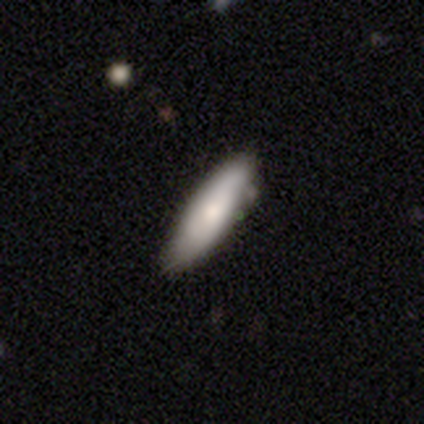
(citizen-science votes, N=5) A smooth galaxy with no disk features (80%) that is in between round and cigar-shaped (50%, tied with cigar-shaped). Merging: none (60%).